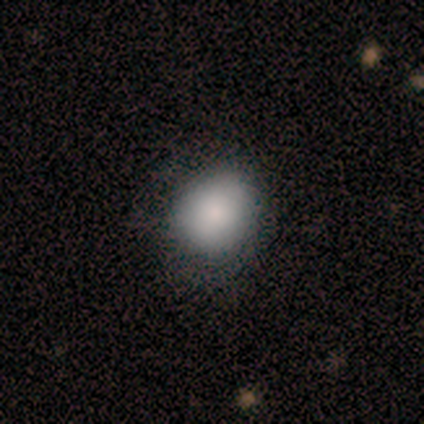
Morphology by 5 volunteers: Smooth or featured? 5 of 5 (100%) said smooth. How rounded? 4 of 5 (80%) said round. Merging? 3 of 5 (60%) said minor disturbance.